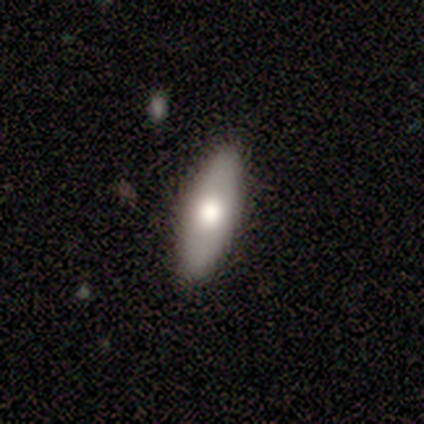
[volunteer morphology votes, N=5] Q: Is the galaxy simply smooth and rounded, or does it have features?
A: smooth — 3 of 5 (60%).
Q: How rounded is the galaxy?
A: in between — 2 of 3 (67%).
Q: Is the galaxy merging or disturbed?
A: none — 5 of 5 (100%).